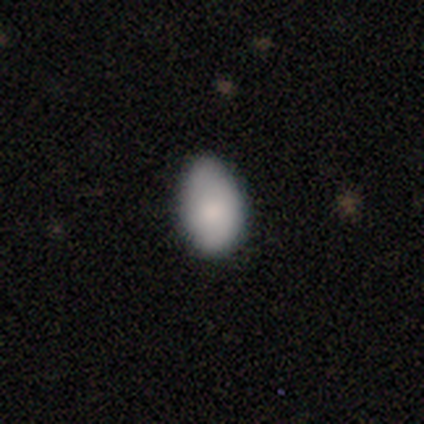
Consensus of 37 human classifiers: smooth 73%, featured or disk 22%, star or artifact 5%. Down the decision tree: how rounded — in between (96%); merging — none (60%).